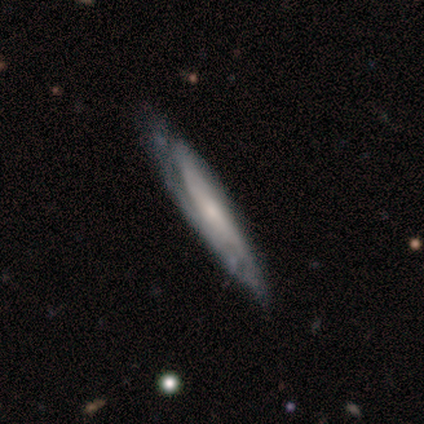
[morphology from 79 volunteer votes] Overall: featured or disk (63%; smooth 34%). Edge-on disk: yes (60%; no 40%). Edge-on bulge: none (57%; rounded 37%). Merging: none (34%; minor disturbance 14%).